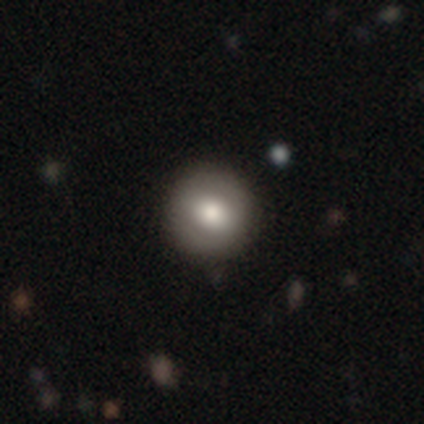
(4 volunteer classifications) A smooth galaxy with no disk features (75%) that is round (100%). Merging: none (75%).